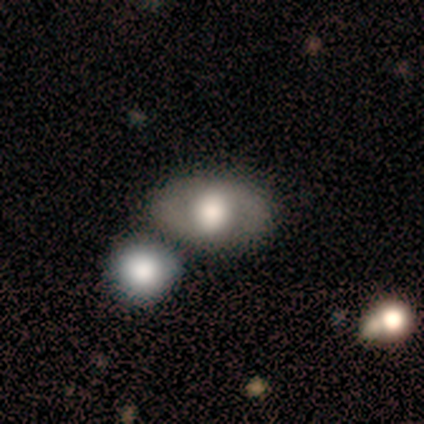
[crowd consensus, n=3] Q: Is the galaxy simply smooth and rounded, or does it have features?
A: smooth — 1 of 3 (33%, tied with featured or disk and star or artifact).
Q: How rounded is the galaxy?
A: in between — 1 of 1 (100%).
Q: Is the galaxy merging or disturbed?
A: none — 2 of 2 (100%).